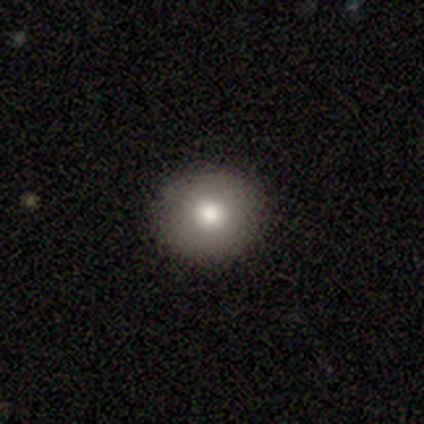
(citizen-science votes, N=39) A smooth galaxy with no disk features (79%) that is round (90%). Merging: none (97%).